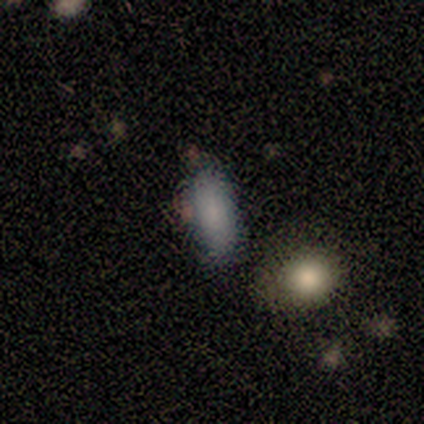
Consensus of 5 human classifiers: Morphology: type=smooth (100%); roundness=cigar-shaped (60%); merging=none (60%).